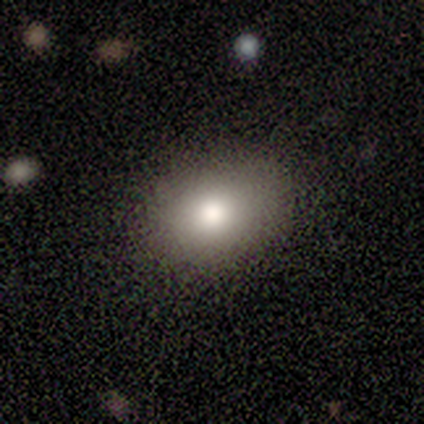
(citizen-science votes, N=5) This appears to be a smooth galaxy with no disk features (100%) that is in between round and cigar-shaped (60%). Merging: none (80%).